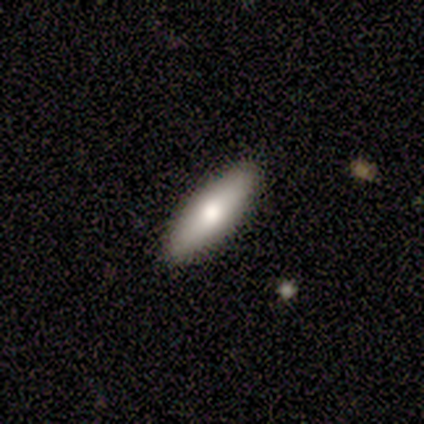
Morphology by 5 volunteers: Volunteers were most divided on "how rounded": cigar-shaped: 60%, in between: 40%, round: 0%. More confident: smooth or featured — smooth (100%); merging — none (100%).